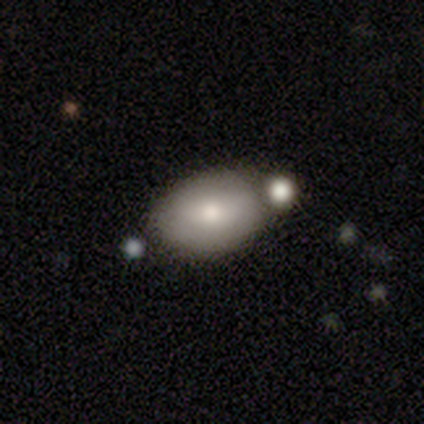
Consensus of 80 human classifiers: This is clearly a smooth galaxy (81%). How rounded: clearly in between (85%). Merging: marginally none (37%).